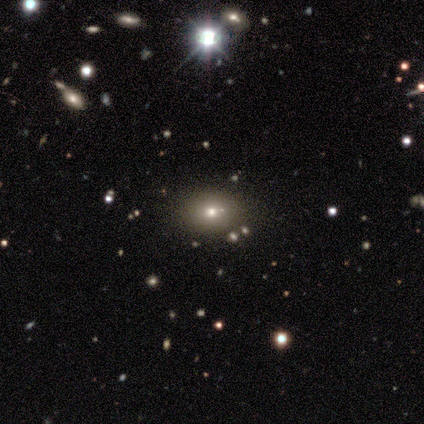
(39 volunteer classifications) Morphology: type=smooth (46%); roundness=round (56%); merging=none (73%).